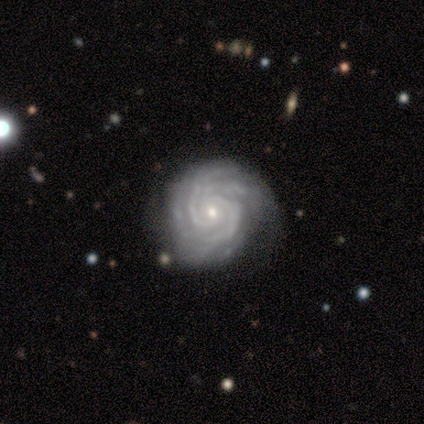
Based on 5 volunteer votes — A featured or disk galaxy (100%) with no bar (60%), 2 (80%) tight (80%) spiral arms (100%) and a small central bulge (100%). Merging: none (80%).